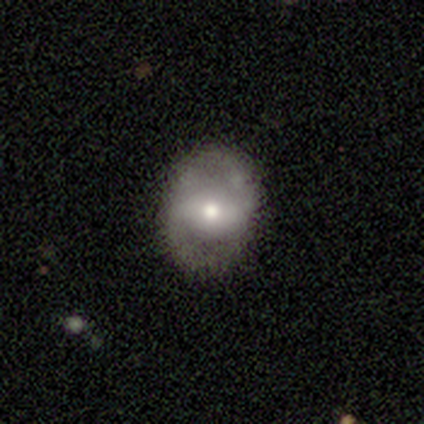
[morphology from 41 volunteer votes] smooth_or_featured: featured or disk (p=0.54) [alt: smooth p=0.44]
disk_edge_on: no (p=0.95) [alt: yes p=0.05]
bar: strong (p=0.43) [alt: no p=0.38]
has_spiral_arms: yes (p=0.57) [alt: no p=0.43]
spiral_winding: medium (p=0.42) [alt: tight p=0.33]
spiral_arm_count: 2 (p=0.75) [alt: can't tell p=0.17]
bulge_size: moderate (p=0.38) [alt: small p=0.33]
merging: none (p=0.68) [alt: minor disturbance p=0.25]